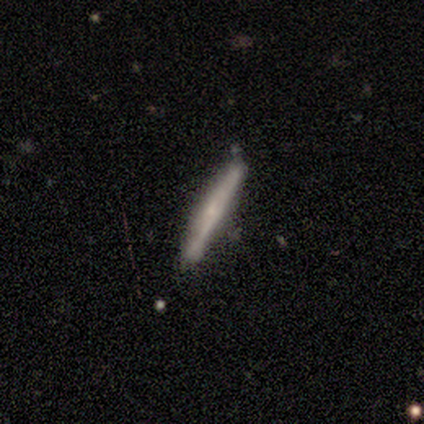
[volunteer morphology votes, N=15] A featured or disk galaxy (80%) viewed edge-on (100%) with no central bulge (58%).

Vote fractions:
- Smooth or featured? featured or disk: 80% / smooth: 20% / star or artifact: 0%
- Edge-on disk? yes: 100% / no: 0%
- Edge-on bulge? none: 58% / rounded: 25% / boxy: 17%
- Merging? none: 80% / minor disturbance: 20% / major disturbance: 0% / merger: 0%